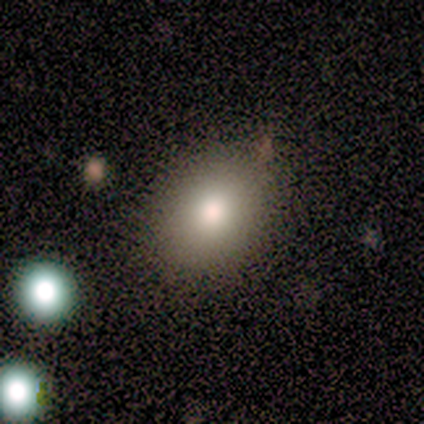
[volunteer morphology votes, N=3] Q: Smooth or featured?
A: smooth (67%); runner-up: featured or disk (33%)
Q: How rounded?
A: in between (100%)
Q: Merging?
A: none (100%)